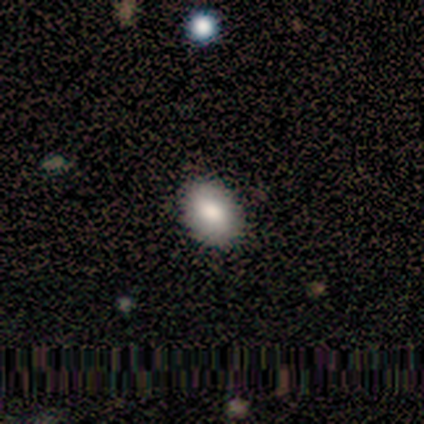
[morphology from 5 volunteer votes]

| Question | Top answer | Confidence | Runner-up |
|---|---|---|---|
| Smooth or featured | smooth | 80% | star or artifact (20%) |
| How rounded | in between | 75% | round (25%) |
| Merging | none | 100% | — |